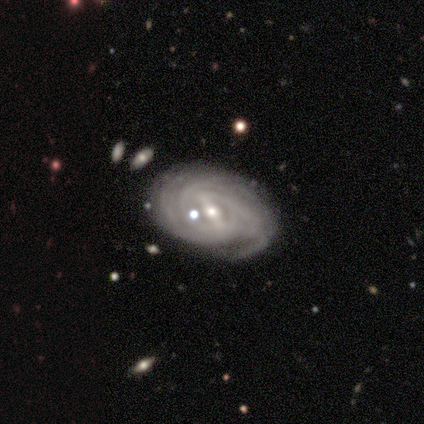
Smooth or featured? featured or disk (100%)
Edge-on disk? no (100%)
Bar? strong (78%)
Spiral arms? yes (89%)
Spiral winding? tight (88%)
Spiral arm count? 4 (50%)
Bulge size? moderate (67%)
Merging? none (78%)